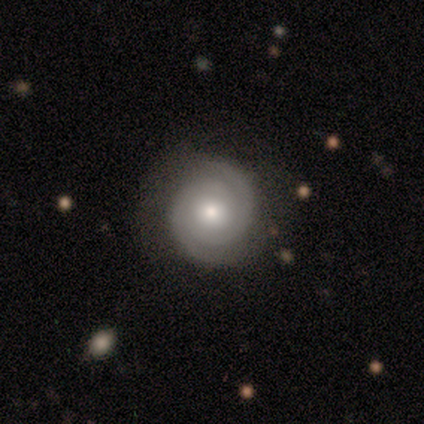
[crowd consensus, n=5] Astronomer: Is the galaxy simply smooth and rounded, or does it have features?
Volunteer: featured or disk — 80%.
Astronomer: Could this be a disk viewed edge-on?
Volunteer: no — 100%.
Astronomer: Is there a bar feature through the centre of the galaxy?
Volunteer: no — 100%.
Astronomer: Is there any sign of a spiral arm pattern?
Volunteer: yes — 100%.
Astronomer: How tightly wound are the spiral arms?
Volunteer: tight — 75%.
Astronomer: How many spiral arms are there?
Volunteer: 2 — 75%.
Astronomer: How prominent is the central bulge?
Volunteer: moderate — 100%.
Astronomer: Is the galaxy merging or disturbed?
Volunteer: none — 80%.